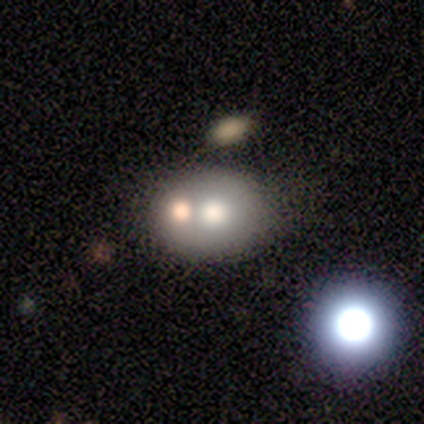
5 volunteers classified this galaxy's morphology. A featured or disk galaxy (60%) with no bar (100%), no spiral arms (100%) and a large central bulge (33%, tied with moderate and small).

Vote fractions:
- Smooth or featured? featured or disk: 60% / smooth: 40% / star or artifact: 0%
- Edge-on disk? no: 100% / yes: 0%
- Bar? no: 100% / strong: 0% / weak: 0%
- Spiral arms? no: 100% / yes: 0%
- Bulge size? large: 33% (tied) / moderate: 33% (tied) / small: 33% (tied) / dominant: 0% / none: 0%
- Merging? none: 40% / minor disturbance: 20% / major disturbance: 20% / merger: 20%